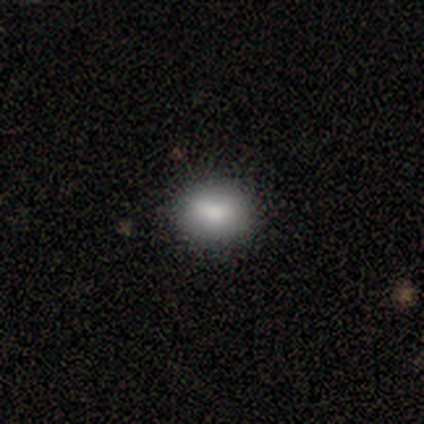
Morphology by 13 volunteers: Smooth or featured? 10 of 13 (77%) said smooth. How rounded? 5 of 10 (50%, tied with in between) said round. Merging? 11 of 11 (100%) said none.